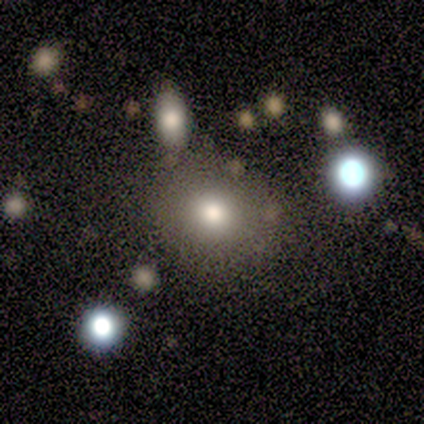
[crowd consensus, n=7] Volunteers were most divided on "how rounded": round: 83%, in between: 17%, cigar-shaped: 0%. More confident: smooth or featured — smooth (86%); merging — none (86%).